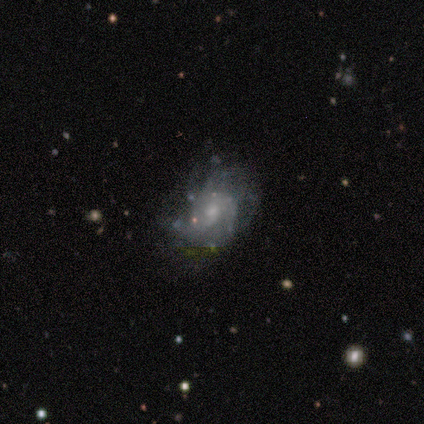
Smooth or featured: featured or disk — 75% (star or artifact — 25%)
Edge-on disk: no — 100%
Bar: no — 67% (weak — 33%)
Spiral arms: yes — 100%
Spiral winding: tight — 33% (tied with medium — 33%; loose — 33%)
Spiral arm count: can't tell — 67% (3 — 33%)
Bulge size: small — 67% (moderate — 33%)
Merging: minor disturbance — 67% (none — 33%)